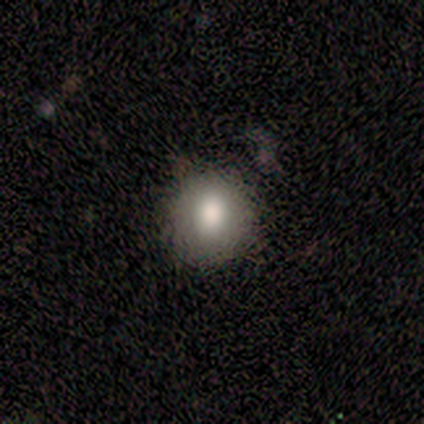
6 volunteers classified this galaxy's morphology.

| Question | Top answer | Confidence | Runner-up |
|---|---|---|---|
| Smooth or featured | smooth | 50% | tied: featured or disk (50%) |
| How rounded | round | 67% | in between (33%) |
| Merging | none | 67% | minor disturbance (33%) |